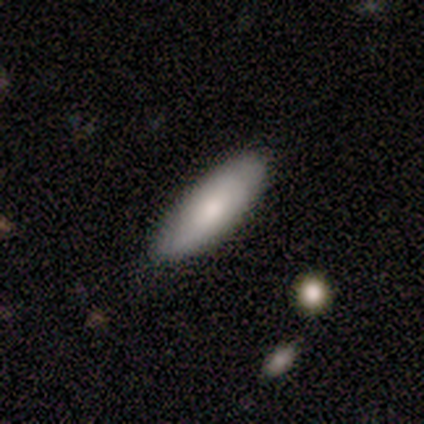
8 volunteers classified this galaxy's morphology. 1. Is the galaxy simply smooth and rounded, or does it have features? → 75% smooth, 25% featured or disk, 0% star or artifact.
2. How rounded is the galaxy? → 67% cigar-shaped, 33% in between, 0% round.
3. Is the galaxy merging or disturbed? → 88% none, 12% major disturbance, 0% minor disturbance, 0% merger.